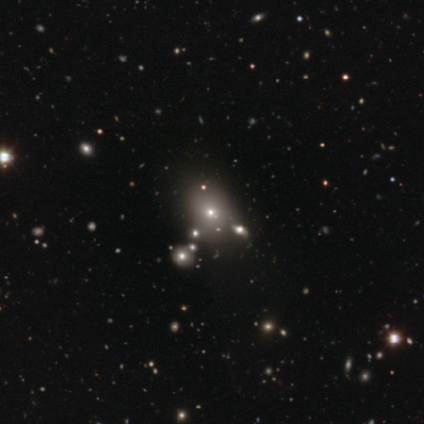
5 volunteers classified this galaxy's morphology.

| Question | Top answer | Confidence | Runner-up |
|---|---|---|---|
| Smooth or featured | smooth | 40% | tied: featured or disk (40%) |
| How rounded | in between | 100% | — |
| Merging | none | 100% | — |